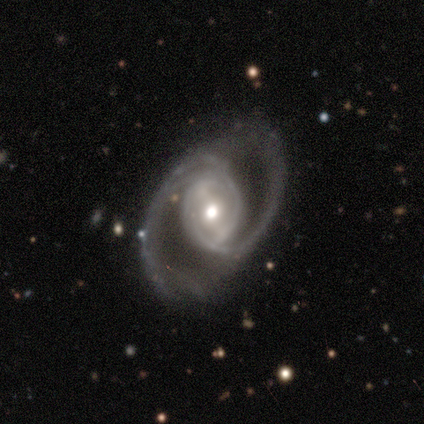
featured or disk 100%, smooth 0%, star or artifact 0%. Down the decision tree: edge-on disk — no (97%); bar — weak (46%); spiral arms — yes (86%); spiral arm count — 2 (72%); spiral winding — medium (59%); bulge size — moderate (73%); merging — none (66%).